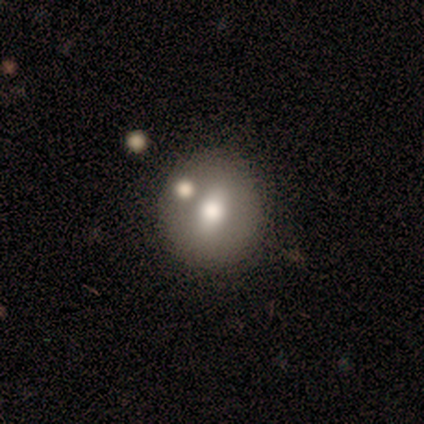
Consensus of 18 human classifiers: Q: Smooth or featured?
A: featured or disk (44%); runner-up: smooth (39%)
Q: Edge-on disk?
A: no (100%)
Q: Bar?
A: no (75%); runner-up: strong (12%)
Q: Spiral arms?
A: no (100%)
Q: Bulge size?
A: moderate (62%); runner-up: large (25%)
Q: Merging?
A: none (87%); runner-up: major disturbance (7%)